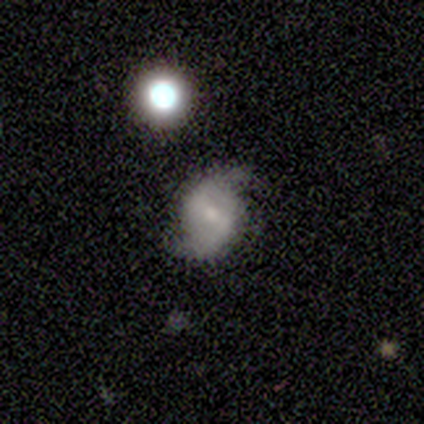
Q: Smooth or featured?
A: featured or disk (100%)
Q: Edge-on disk?
A: no (100%)
Q: Bar?
A: weak (60%); runner-up: strong (20%)
Q: Spiral arms?
A: yes (100%)
Q: Spiral winding?
A: loose (60%); runner-up: medium (40%)
Q: Spiral arm count?
A: 2 (100%)
Q: Bulge size?
A: moderate (40%); tied with: small (40%)
Q: Merging?
A: none (100%)